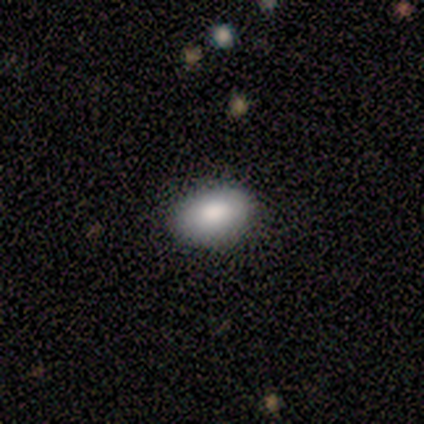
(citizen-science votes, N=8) Smooth or featured? smooth (100%)
How rounded? in between (88%)
Merging? none (88%)